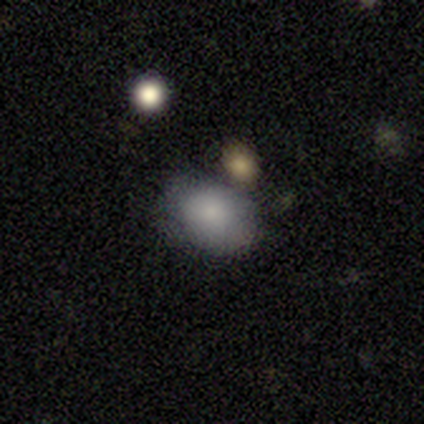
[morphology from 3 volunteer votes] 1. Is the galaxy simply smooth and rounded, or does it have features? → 100% smooth, 0% featured or disk, 0% star or artifact.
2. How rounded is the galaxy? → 100% in between, 0% round, 0% cigar-shaped.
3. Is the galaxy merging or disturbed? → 33% none (tied), 33% minor disturbance (tied), 33% major disturbance (tied), 0% merger.